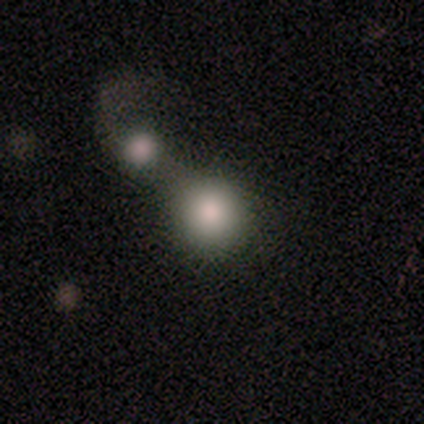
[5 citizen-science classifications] This is clearly a smooth galaxy (80%). How rounded: clearly round (100%). Merging: marginally none (40%, tied with merger).